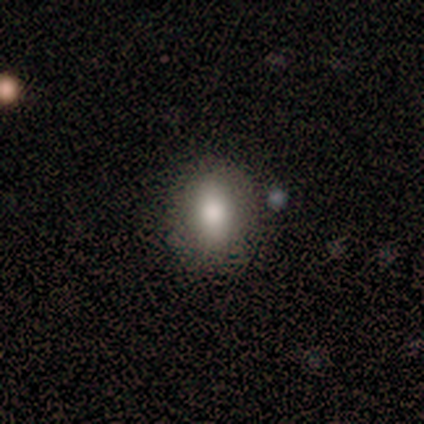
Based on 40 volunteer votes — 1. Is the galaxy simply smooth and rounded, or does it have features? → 78% smooth, 15% star or artifact, 8% featured or disk.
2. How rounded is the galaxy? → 71% in between, 19% round, 10% cigar-shaped.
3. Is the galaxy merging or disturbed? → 76% none, 21% minor disturbance, 3% major disturbance, 0% merger.